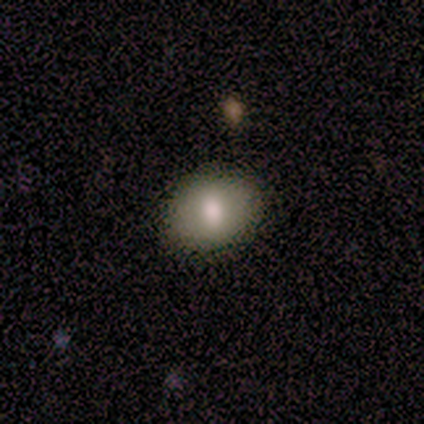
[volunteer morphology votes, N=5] smooth-or-featured: smooth: 100% | featured or disk: 0% | star or artifact: 0%
  how-rounded: in between: 80% | round: 20% | cigar-shaped: 0%
  merging: none: 100% | minor disturbance: 0% | major disturbance: 0% | merger: 0%